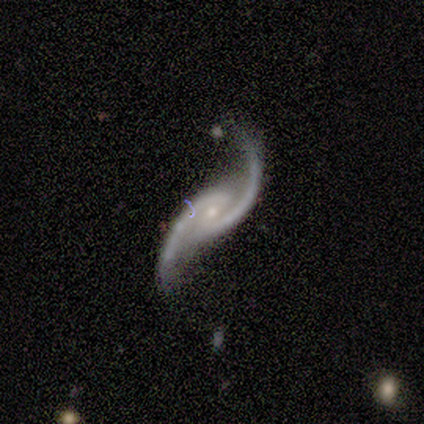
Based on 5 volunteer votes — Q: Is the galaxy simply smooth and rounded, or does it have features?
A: featured or disk — 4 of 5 (80%).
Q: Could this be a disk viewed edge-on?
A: no — 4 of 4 (100%).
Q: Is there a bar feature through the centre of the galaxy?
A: no — 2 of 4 (50%).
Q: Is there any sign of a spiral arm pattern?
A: yes — 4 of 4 (100%).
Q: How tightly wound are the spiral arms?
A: medium — 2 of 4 (50%, tied with loose).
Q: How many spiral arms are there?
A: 2 — 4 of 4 (100%).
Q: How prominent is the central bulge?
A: small — 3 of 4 (75%).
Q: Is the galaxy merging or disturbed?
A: none — 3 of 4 (75%).